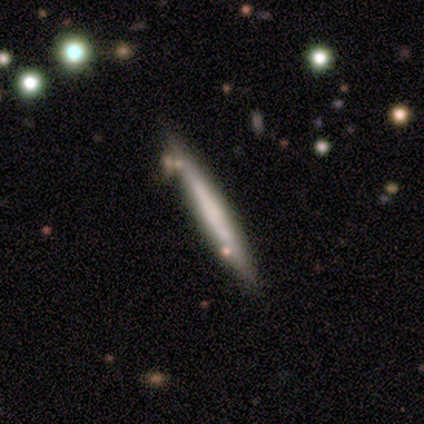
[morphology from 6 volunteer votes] smooth-or-featured: smooth: 50% (tied) | featured or disk: 50% (tied) | star or artifact: 0%
  how-rounded: cigar-shaped: 100% | round: 0% | in between: 0%
  merging: minor disturbance: 50% | none: 33% | merger: 17% | major disturbance: 0%